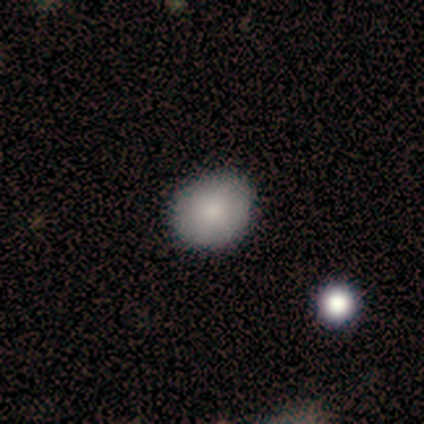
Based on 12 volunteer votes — This appears to be a smooth galaxy with no disk features (92%) that is round (91%). Merging: none (83%).